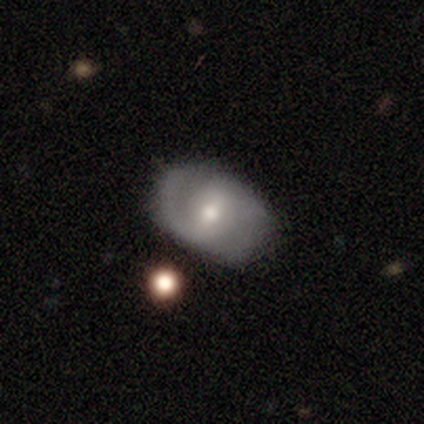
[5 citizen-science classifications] Morphology: type=featured or disk (100%); edge-on=no (100%); bar=weak (80%); spiral arms=yes (100%); winding=medium (40%, tied with loose); arm count=2 (80%); bulge=small (60%); merging=none (80%).